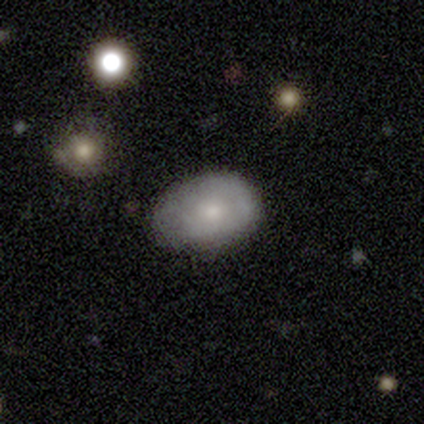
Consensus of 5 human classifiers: Smooth or featured: smooth — 60% (featured or disk — 40%)
How rounded: in between — 67% (round — 33%)
Merging: none — 60% (minor disturbance — 40%)